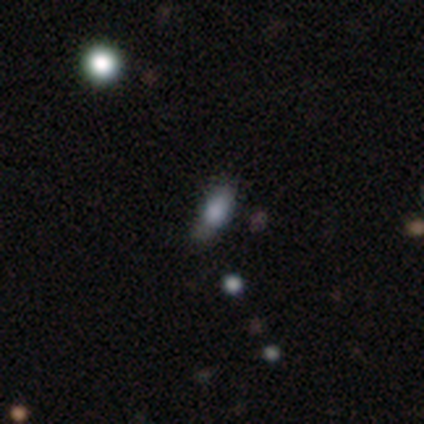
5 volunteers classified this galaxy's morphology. smooth_or_featured: smooth (p=0.80) [alt: featured or disk p=0.20]
how_rounded: in between (p=0.50) [tied with: cigar-shaped p=0.50]
merging: none (p=0.40) [alt: minor disturbance p=0.20]